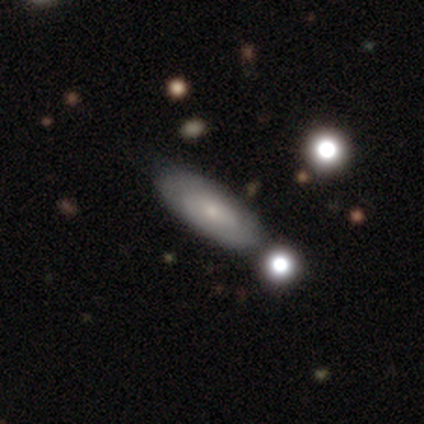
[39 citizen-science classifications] Smooth or featured?
  - smooth: 54% *
  - featured or disk: 46%
  - star or artifact: 0%
How rounded?
  - in between: 76% *
  - cigar-shaped: 24%
  - round: 0%
Merging?
  - none: 51% *
  - merger: 13%
  - minor disturbance: 5%
  - major disturbance: 3%